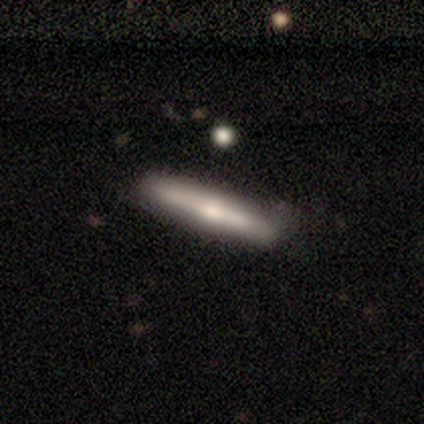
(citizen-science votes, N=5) This is likely a smooth galaxy (60%). How rounded: clearly cigar-shaped (100%). Merging: clearly none (100%).